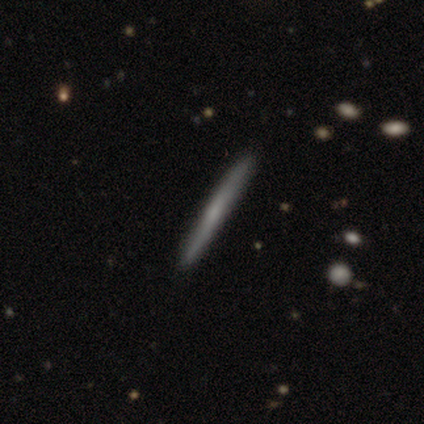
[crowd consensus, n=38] This appears to be a featured or disk galaxy (50%) viewed edge-on (100%) with no central bulge (58%). Merging: none (91%).